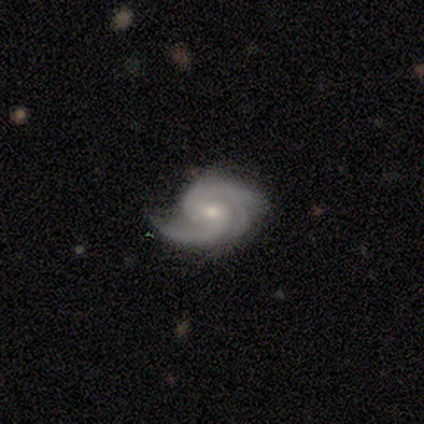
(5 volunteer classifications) Morphology: type=featured or disk (100%); edge-on=no (100%); bar=weak (80%); spiral arms=yes (100%); winding=medium (60%); arm count=2 (80%); bulge=moderate (80%); merging=minor disturbance (80%).